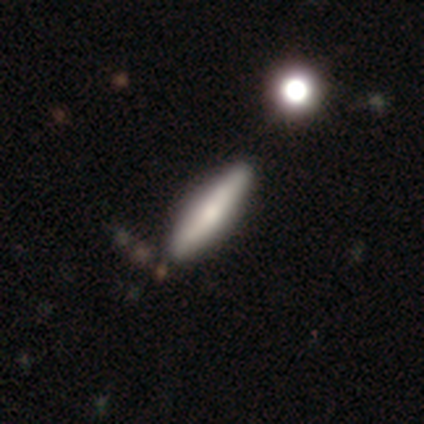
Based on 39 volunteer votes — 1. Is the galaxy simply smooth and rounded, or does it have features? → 67% smooth, 28% featured or disk, 5% star or artifact.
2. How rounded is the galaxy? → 77% cigar-shaped, 23% in between, 0% round.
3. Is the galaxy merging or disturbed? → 49% none, 11% minor disturbance, 8% merger, 3% major disturbance.